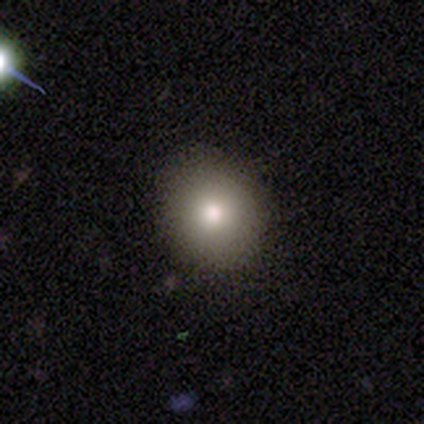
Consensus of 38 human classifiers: smooth-or-featured: smooth: 79% | featured or disk: 11% | star or artifact: 11%
  how-rounded: round: 70% | in between: 23% | cigar-shaped: 7%
  merging: none: 79% | minor disturbance: 15% | major disturbance: 3% | merger: 3%